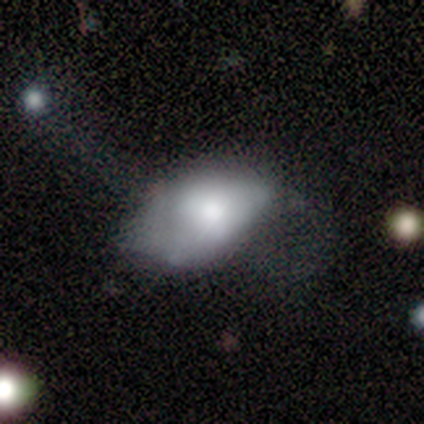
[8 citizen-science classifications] Overall: smooth (62%; featured or disk 38%). How rounded: in between (100%). Merging: minor disturbance (50%; major disturbance 38%).